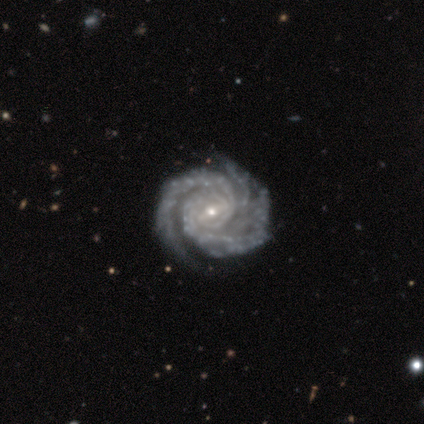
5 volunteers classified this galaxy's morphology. A featured or disk galaxy (100%) with a strong bar (80%), 3 (80%) tight (80%) spiral arms (100%) and a small central bulge (60%).

Vote fractions:
- Smooth or featured? featured or disk: 100% / smooth: 0% / star or artifact: 0%
- Edge-on disk? no: 100% / yes: 0%
- Bar? strong: 80% / weak: 20% / no: 0%
- Spiral arms? yes: 100% / no: 0%
- Spiral winding? tight: 80% / medium: 20% / loose: 0%
- Spiral arm count? 3: 80% / 2: 20% / 1: 0% / 4: 0% / more than 4: 0% / can't tell: 0%
- Bulge size? small: 60% / moderate: 40% / dominant: 0% / large: 0% / none: 0%
- Merging? none: 60% / minor disturbance: 20% / major disturbance: 20% / merger: 0%